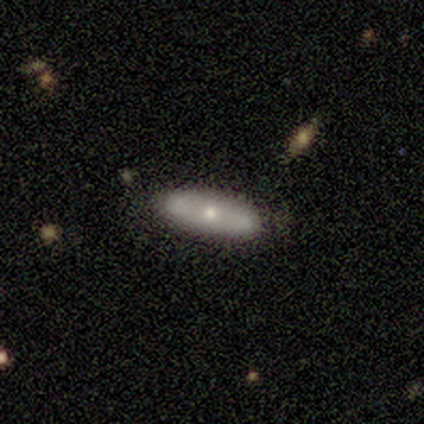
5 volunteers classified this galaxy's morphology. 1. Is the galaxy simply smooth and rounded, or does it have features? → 80% featured or disk, 20% smooth, 0% star or artifact.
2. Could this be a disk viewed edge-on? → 50% yes (tied), 50% no (tied).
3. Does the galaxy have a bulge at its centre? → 50% none (tied), 50% rounded (tied), 0% boxy.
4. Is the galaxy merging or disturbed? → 100% none, 0% minor disturbance, 0% major disturbance, 0% merger.